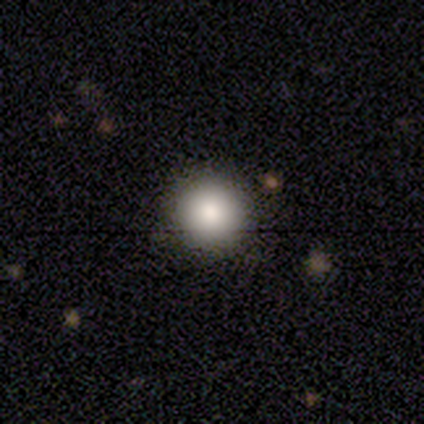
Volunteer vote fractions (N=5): Q: Smooth or featured?
A: smooth (80%); runner-up: star or artifact (20%)
Q: How rounded?
A: round (100%)
Q: Merging?
A: none (100%)